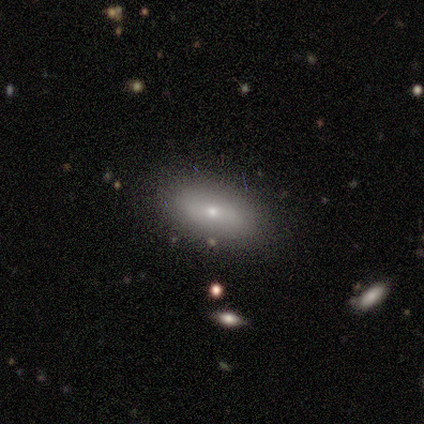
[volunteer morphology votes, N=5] Smooth or featured: smooth — 80% (featured or disk — 20%)
How rounded: in between — 100%
Merging: none — 80% (minor disturbance — 20%)